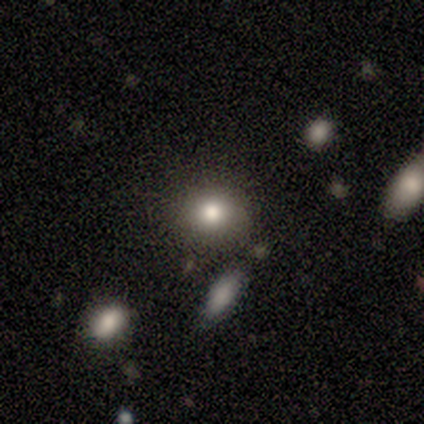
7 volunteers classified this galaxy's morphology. smooth_or_featured: smooth (p=0.86) [alt: star or artifact p=0.14]
how_rounded: round (p=0.83) [alt: in between p=0.17]
merging: none (p=0.83) [alt: minor disturbance p=0.17]